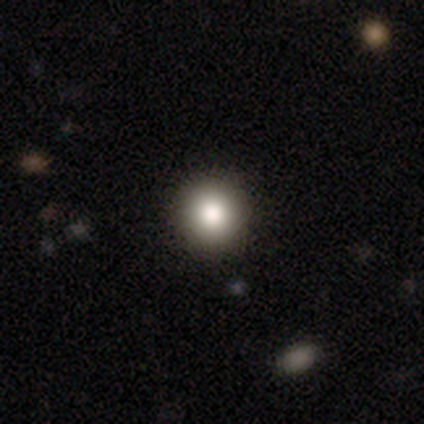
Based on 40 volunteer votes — smooth 82%, featured or disk 18%, star or artifact 0%. Down the decision tree: how rounded — round (100%); merging — none (72%).